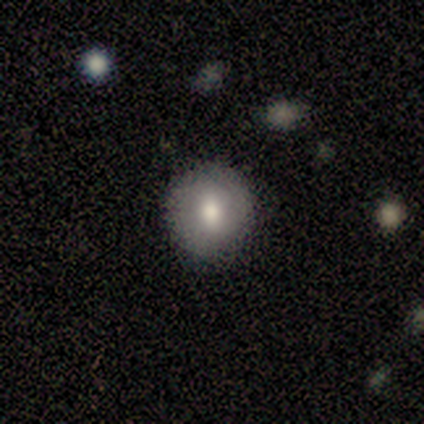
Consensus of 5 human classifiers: A smooth galaxy with no disk features (80%) that is round (100%). Merging: none (100%).